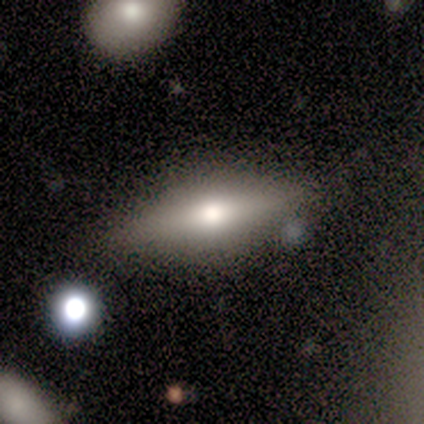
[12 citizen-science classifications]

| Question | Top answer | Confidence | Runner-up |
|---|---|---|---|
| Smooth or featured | smooth | 42% | tied: featured or disk (42%) |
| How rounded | cigar-shaped | 60% | in between (40%) |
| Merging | none | 90% | minor disturbance (10%) |